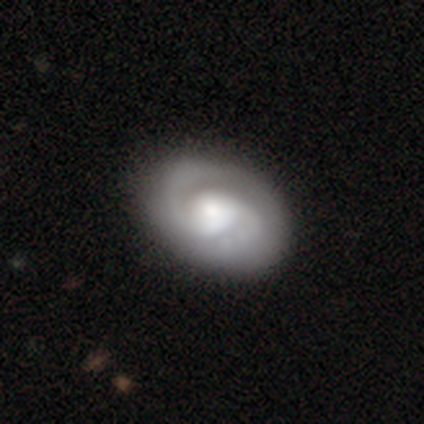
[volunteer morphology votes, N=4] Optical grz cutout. It shows a featured or disk galaxy (75%) with no bar (67%), 2 (100%) tight (67%) spiral arms (100%) and a large central bulge (67%). Merging: none (50%).